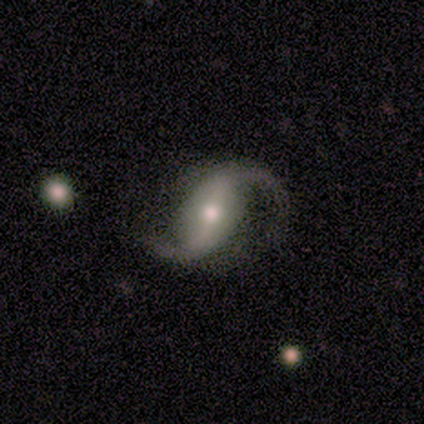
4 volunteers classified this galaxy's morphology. A featured or disk galaxy (100%) with a weak bar (75%), 2 (100%) loose (75%) spiral arms (100%) and a moderate central bulge (75%).

Vote fractions:
- Smooth or featured? featured or disk: 100% / smooth: 0% / star or artifact: 0%
- Edge-on disk? no: 100% / yes: 0%
- Bar? weak: 75% / strong: 25% / no: 0%
- Spiral arms? yes: 100% / no: 0%
- Spiral winding? loose: 75% / medium: 25% / tight: 0%
- Spiral arm count? 2: 100% / 1: 0% / 3: 0% / 4: 0% / more than 4: 0% / can't tell: 0%
- Bulge size? moderate: 75% / small: 25% / dominant: 0% / large: 0% / none: 0%
- Merging? none: 50% (tied) / minor disturbance: 50% (tied) / major disturbance: 0% / merger: 0%